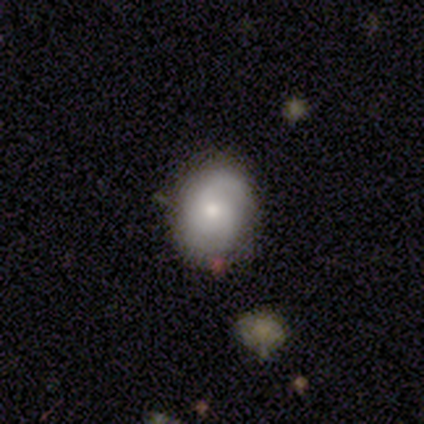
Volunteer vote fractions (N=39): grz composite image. It shows a smooth galaxy with no disk features (51%) that is round (65%). Merging: none (68%).